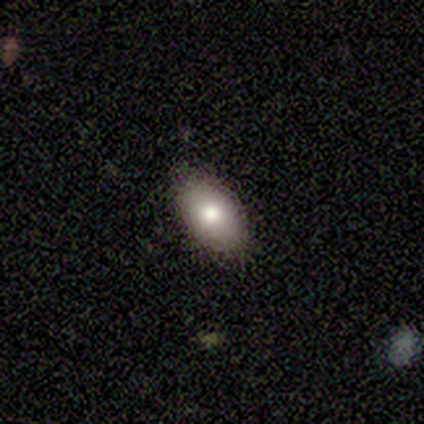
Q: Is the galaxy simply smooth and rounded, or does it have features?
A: smooth — 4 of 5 (80%).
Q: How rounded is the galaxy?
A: in between — 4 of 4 (100%).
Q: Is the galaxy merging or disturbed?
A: none — 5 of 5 (100%).